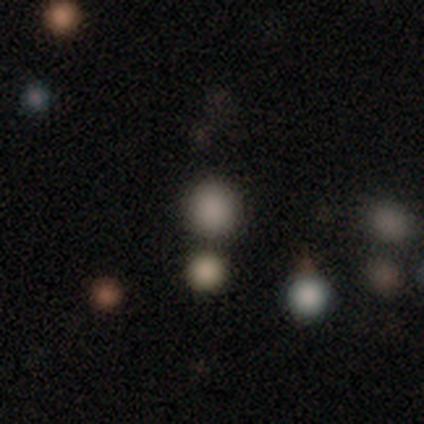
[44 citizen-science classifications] Smooth or featured?
  - smooth: 70% *
  - star or artifact: 23%
  - featured or disk: 7%
How rounded?
  - round: 90% *
  - in between: 10%
  - cigar-shaped: 0%
Merging?
  - none: 76% *
  - minor disturbance: 9%
  - merger: 9%
  - major disturbance: 6%